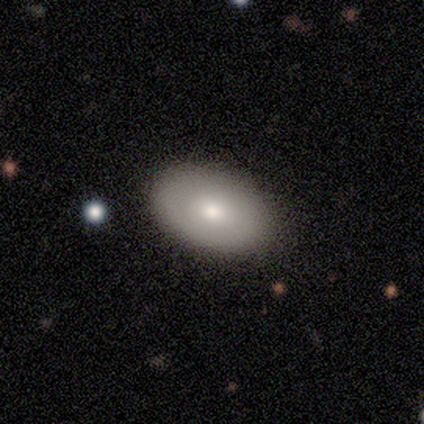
smooth-or-featured: smooth: 75% | featured or disk: 12% | star or artifact: 12%
  how-rounded: in between: 100% | round: 0% | cigar-shaped: 0%
  merging: none: 100% | minor disturbance: 0% | major disturbance: 0% | merger: 0%